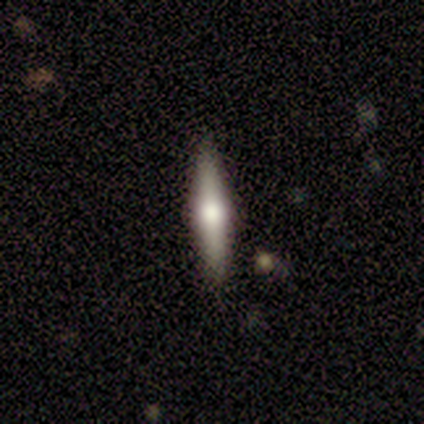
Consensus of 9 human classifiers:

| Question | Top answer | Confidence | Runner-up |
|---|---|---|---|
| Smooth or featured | featured or disk | 89% | smooth (11%) |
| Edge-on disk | yes | 100% | — |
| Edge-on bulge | rounded | 100% | — |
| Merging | none | 89% | minor disturbance (11%) |